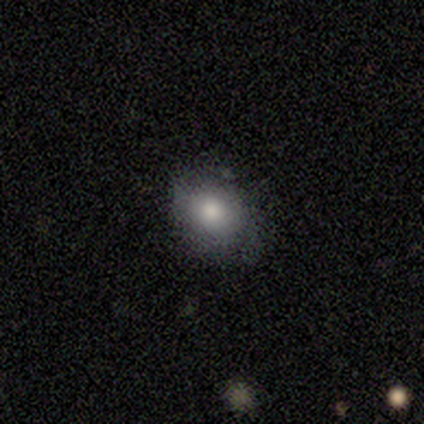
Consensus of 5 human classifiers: This is likely a smooth galaxy (60%). How rounded: likely round (67%). Merging: likely none (75%).